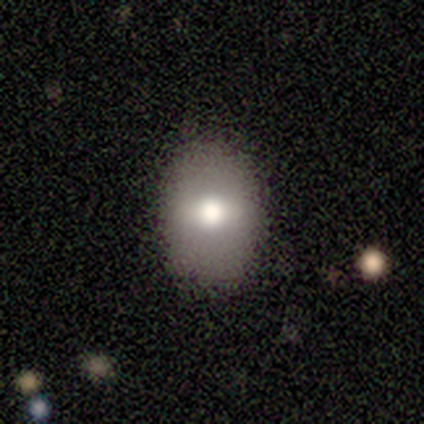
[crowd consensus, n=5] Q: Smooth or featured?
A: smooth (60%); runner-up: featured or disk (20%)
Q: How rounded?
A: in between (67%); runner-up: round (33%)
Q: Merging?
A: none (100%)